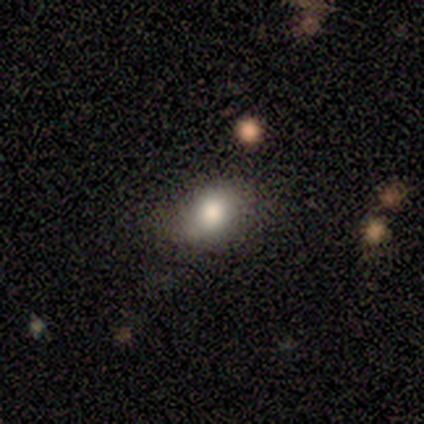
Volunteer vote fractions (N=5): Smooth or featured?
  - smooth: 100% *
  - featured or disk: 0%
  - star or artifact: 0%
How rounded?
  - in between: 60% *
  - round: 40%
  - cigar-shaped: 0%
Merging?
  - none: 60% *
  - minor disturbance: 20%
  - major disturbance: 20%
  - merger: 0%